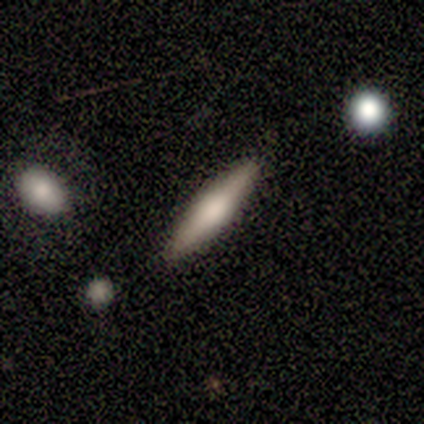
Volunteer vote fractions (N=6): Smooth or featured? 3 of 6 (50%, tied with featured or disk) said smooth. How rounded? 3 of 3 (100%) said cigar-shaped. Merging? 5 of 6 (83%) said none.